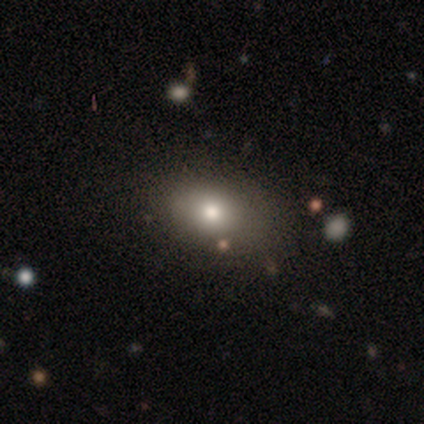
Volunteers were most divided on "merging": none: 60%, minor disturbance: 40%, major disturbance: 0%, merger: 0%. More confident: smooth or featured — smooth (100%); how rounded — in between (80%).